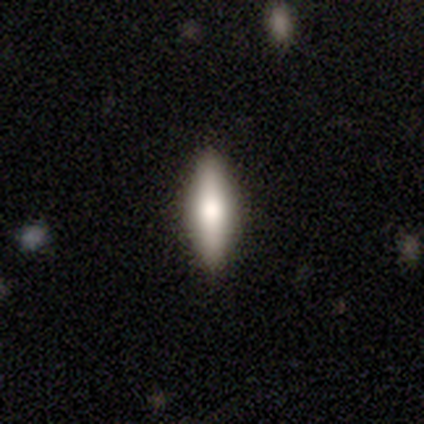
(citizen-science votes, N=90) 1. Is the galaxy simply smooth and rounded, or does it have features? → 62% smooth, 31% featured or disk, 7% star or artifact.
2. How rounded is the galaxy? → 73% cigar-shaped, 27% in between, 0% round.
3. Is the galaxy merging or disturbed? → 92% none, 8% minor disturbance, 0% major disturbance, 0% merger.